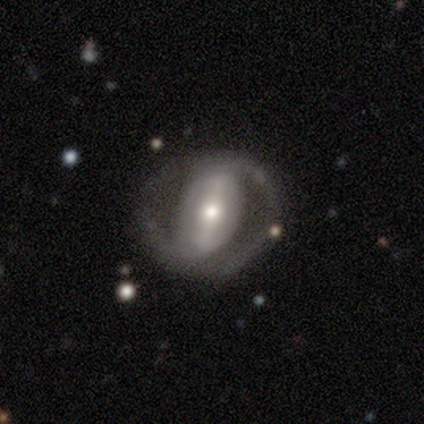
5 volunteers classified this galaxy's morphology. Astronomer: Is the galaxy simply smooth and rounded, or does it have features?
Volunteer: featured or disk — 100%.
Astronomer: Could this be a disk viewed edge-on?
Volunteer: no — 100%.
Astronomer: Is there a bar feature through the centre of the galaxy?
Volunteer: strong — 40%, tied with weak at 40%.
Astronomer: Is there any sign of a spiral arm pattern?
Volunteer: no — 80%.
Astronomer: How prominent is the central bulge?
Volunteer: moderate — 40%, tied with small at 40%.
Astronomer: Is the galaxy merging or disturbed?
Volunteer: none — 80%.